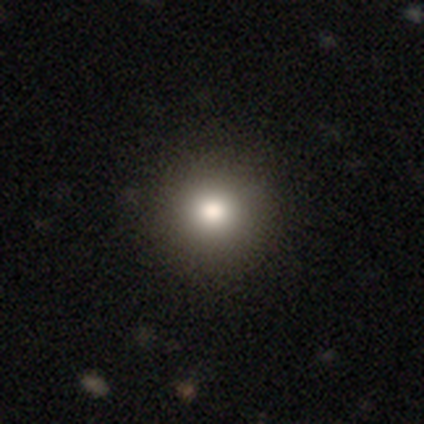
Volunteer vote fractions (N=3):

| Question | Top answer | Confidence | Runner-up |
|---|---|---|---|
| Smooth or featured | smooth | 100% | — |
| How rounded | round | 100% | — |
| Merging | none | 100% | — |